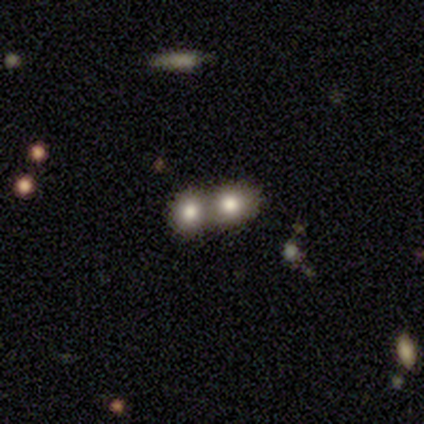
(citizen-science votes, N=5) Smooth or featured? smooth (60%)
How rounded? round (100%)
Merging? merger (100%)